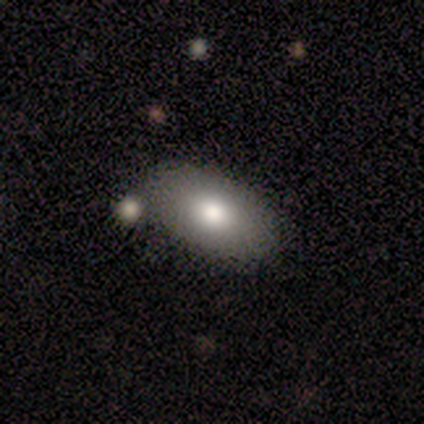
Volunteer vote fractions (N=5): Smooth or featured: smooth — 80% (featured or disk — 20%)
How rounded: in between — 100%
Merging: none — 100%